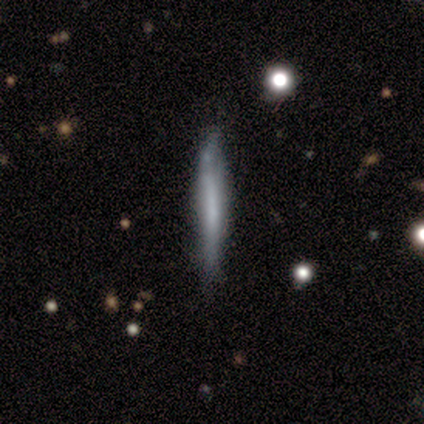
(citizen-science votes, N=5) A smooth galaxy with no disk features (80%) that is cigar-shaped (100%).

Vote fractions:
- Smooth or featured? smooth: 80% / featured or disk: 20% / star or artifact: 0%
- How rounded? cigar-shaped: 100% / round: 0% / in between: 0%
- Merging? none: 100% / minor disturbance: 0% / major disturbance: 0% / merger: 0%